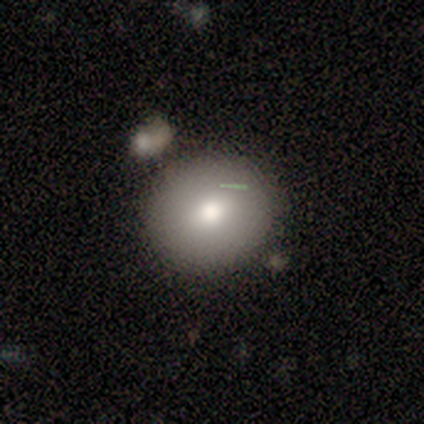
smooth-or-featured: featured or disk: 60% | star or artifact: 40% | smooth: 0%
  disk-edge-on: no: 100% | yes: 0%
    bar: no: 67% | strong: 33% | weak: 0%
    has-spiral-arms: no: 100% | yes: 0%
    bulge-size: moderate: 67% | small: 33% | dominant: 0% | large: 0% | none: 0%
  merging: none: 67% | minor disturbance: 33% | major disturbance: 0% | merger: 0%